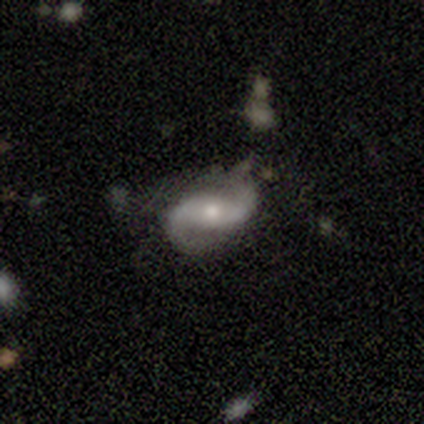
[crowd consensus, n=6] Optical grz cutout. It shows a featured or disk galaxy (83%) with a weak bar (100%), 2 (100%) loose (67%) spiral arms (75%) and a moderate central bulge (75%). Merging: none (100%).